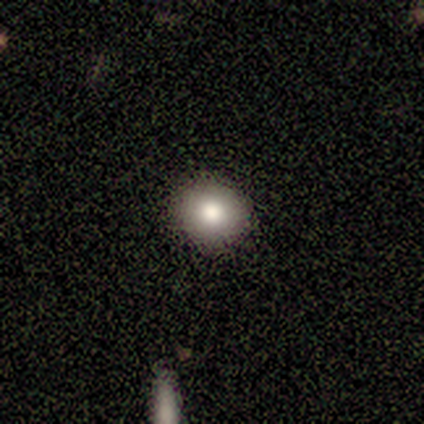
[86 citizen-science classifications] Q: Smooth or featured?
A: smooth (76%); runner-up: star or artifact (17%)
Q: How rounded?
A: round (88%); runner-up: in between (12%)
Q: Merging?
A: none (90%); runner-up: minor disturbance (6%)